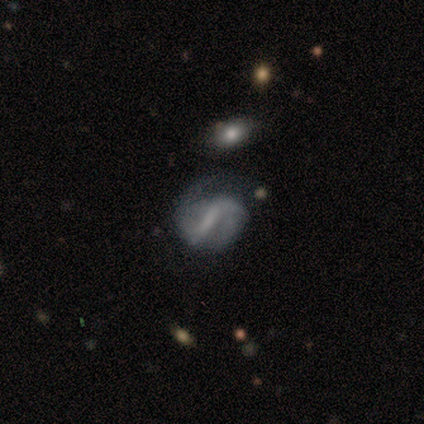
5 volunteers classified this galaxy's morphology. smooth-or-featured: featured or disk: 80% | star or artifact: 20% | smooth: 0%
  disk-edge-on: no: 100% | yes: 0%
    bar: strong: 50% | weak: 25% | no: 25%
    has-spiral-arms: yes: 75% | no: 25%
      spiral-winding: tight: 67% | loose: 33% | medium: 0%
      spiral-arm-count: 2: 100% | 1: 0% | 3: 0% | 4: 0% | more than 4: 0% | can't tell: 0%
    bulge-size: none: 75% | small: 25% | dominant: 0% | large: 0% | moderate: 0%
  merging: none: 75% | merger: 25% | minor disturbance: 0% | major disturbance: 0%